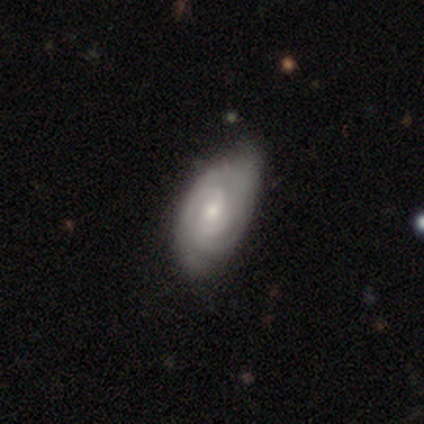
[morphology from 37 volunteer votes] Smooth or featured? 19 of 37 (51%) said featured or disk. Edge-on disk? 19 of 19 (100%) said no. Bar? 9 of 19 (47%) said no. Spiral arms? 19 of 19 (100%) said yes. Spiral winding? 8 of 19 (42%, tied with medium) said tight. Spiral arm count? 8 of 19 (42%) said 2. Bulge size? 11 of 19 (58%) said moderate. Merging? 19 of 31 (61%) said none.